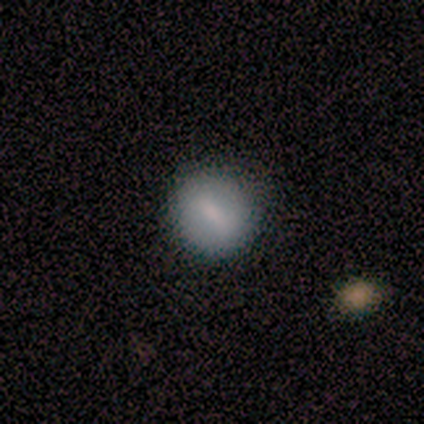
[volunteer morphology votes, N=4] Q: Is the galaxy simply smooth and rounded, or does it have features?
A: smooth — 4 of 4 (100%).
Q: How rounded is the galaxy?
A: round — 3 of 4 (75%).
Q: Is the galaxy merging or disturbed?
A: none — 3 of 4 (75%).